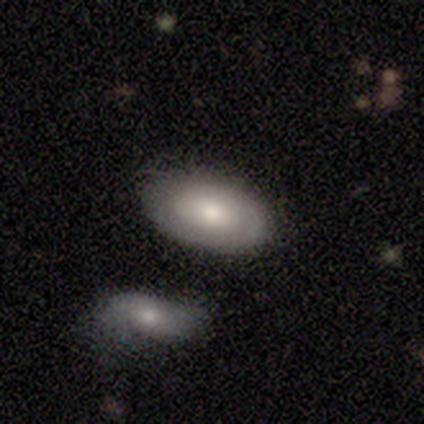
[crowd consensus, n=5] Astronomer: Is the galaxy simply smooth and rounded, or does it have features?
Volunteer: featured or disk — 60% (runner-up: smooth, 40%).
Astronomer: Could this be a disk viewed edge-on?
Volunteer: no — 100%.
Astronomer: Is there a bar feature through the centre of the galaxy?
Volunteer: no — 67%.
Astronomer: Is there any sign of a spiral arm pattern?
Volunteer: no — 67%.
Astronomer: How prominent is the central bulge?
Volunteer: large — 67%.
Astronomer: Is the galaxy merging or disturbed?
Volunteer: none — 80%.